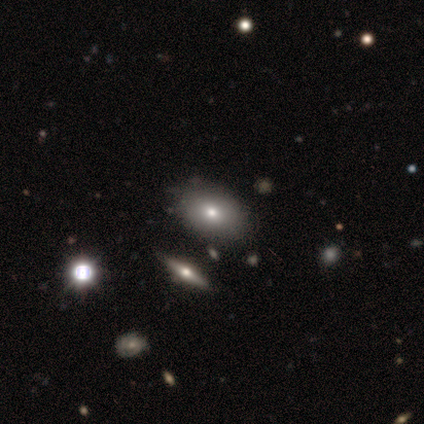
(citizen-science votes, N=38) Smooth or featured? smooth (58%)
How rounded? in between (82%)
Merging? none (60%)